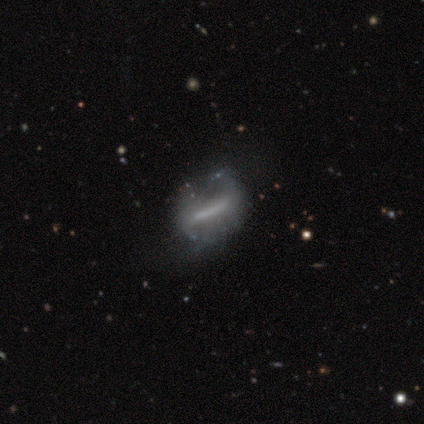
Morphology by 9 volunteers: Smooth or featured: featured or disk — 67% (smooth — 22%)
Edge-on disk: no — 100%
Bar: strong — 83% (weak — 17%)
Spiral arms: no — 100%
Bulge size: none — 50% (moderate — 33%)
Merging: minor disturbance — 38% (tied with major disturbance — 38%)